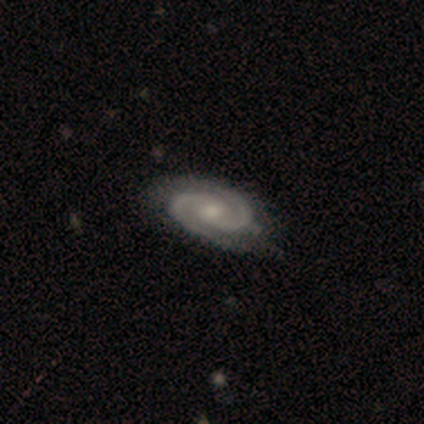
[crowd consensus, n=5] smooth_or_featured: featured or disk (p=1.00)
disk_edge_on: no (p=1.00)
bar: no (p=0.80) [alt: weak p=0.20]
has_spiral_arms: yes (p=1.00)
spiral_winding: medium (p=0.60) [alt: tight p=0.40]
spiral_arm_count: 2 (p=1.00)
bulge_size: moderate (p=0.80) [alt: small p=0.20]
merging: none (p=1.00)